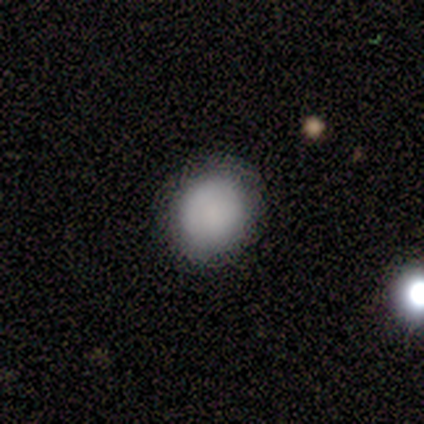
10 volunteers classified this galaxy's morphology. smooth 70%, star or artifact 20%, featured or disk 10%. Down the decision tree: how rounded — round (71%); merging — none (75%).